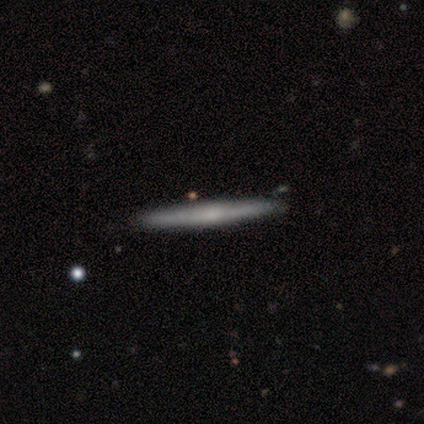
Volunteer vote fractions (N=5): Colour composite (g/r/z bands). It shows a smooth galaxy with no disk features (80%) that is cigar-shaped (100%). Merging: none (100%).